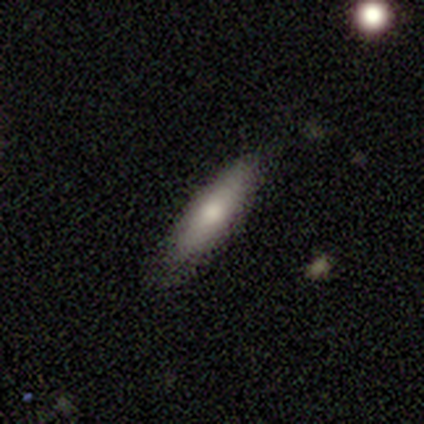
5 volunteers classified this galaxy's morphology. Volunteers were most divided on "how rounded" (2-way tie): in between: 50%, cigar-shaped: 50%, round: 0%. More confident: smooth or featured — smooth (80%); merging — none (75%).